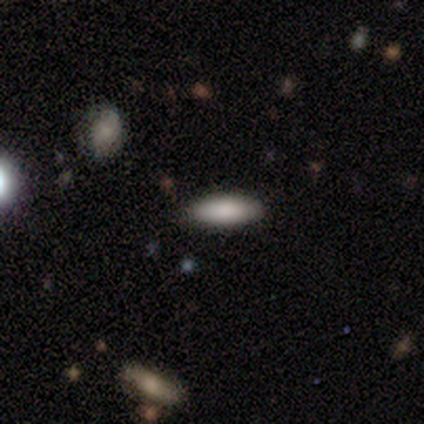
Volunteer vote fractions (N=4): Smooth or featured: smooth — 75% (featured or disk — 25%)
How rounded: in between — 100%
Merging: none — 100%